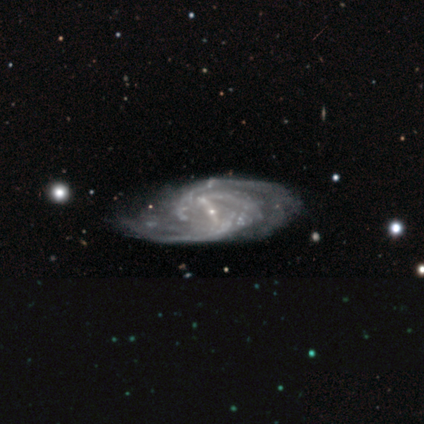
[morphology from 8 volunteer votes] A featured or disk galaxy (100%) with a strong bar (57%), 2 (57%) tight (57%) spiral arms (100%) and a small central bulge (100%).

Vote fractions:
- Smooth or featured? featured or disk: 100% / smooth: 0% / star or artifact: 0%
- Edge-on disk? no: 88% / yes: 12%
- Bar? strong: 57% / weak: 43% / no: 0%
- Spiral arms? yes: 100% / no: 0%
- Spiral winding? tight: 57% / medium: 29% / loose: 14%
- Spiral arm count? 2: 57% / can't tell: 43% / 1: 0% / 3: 0% / 4: 0% / more than 4: 0%
- Bulge size? small: 100% / dominant: 0% / large: 0% / moderate: 0% / none: 0%
- Merging? none: 62% / major disturbance: 38% / minor disturbance: 0% / merger: 0%